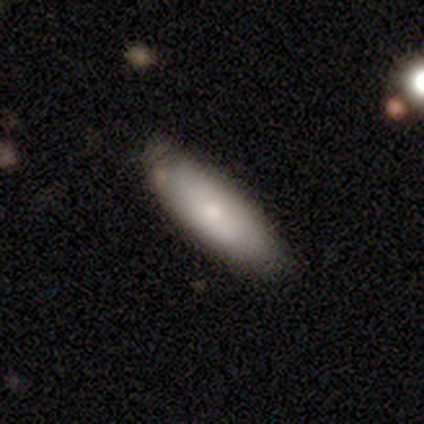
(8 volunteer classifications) smooth 75%, featured or disk 25%, star or artifact 0%. Down the decision tree: how rounded — in between (83%); merging — none (75%).